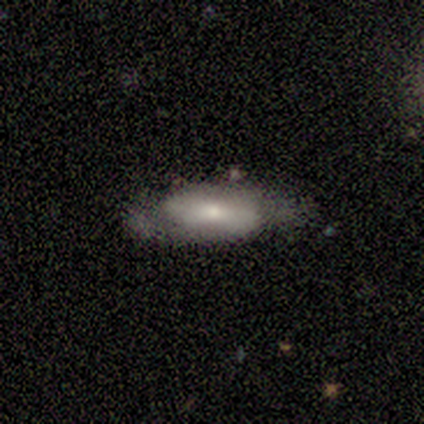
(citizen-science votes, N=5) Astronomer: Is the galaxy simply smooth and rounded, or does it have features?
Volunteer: featured or disk — 80%.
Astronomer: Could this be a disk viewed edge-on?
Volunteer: no — 100%.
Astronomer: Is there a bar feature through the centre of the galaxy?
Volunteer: strong — 50%.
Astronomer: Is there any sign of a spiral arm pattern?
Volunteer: yes — 50%, tied with no at 50%.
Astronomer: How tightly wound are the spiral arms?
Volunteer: tight — 50%, tied with medium at 50%.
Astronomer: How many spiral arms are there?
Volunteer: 2 — 100%.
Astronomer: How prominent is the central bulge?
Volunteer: moderate — 75%.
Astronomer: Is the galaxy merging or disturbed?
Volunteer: none — 40%, tied with minor disturbance at 40%.